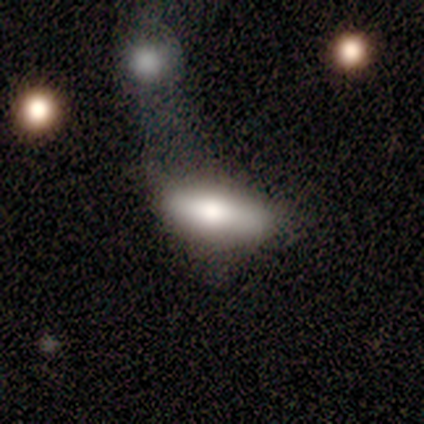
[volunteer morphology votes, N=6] This appears to be a smooth galaxy with no disk features (83%) that is cigar-shaped (60%). Merging: none (50%).